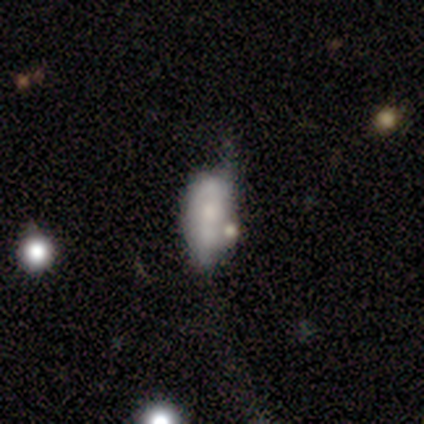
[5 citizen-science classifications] A smooth galaxy with no disk features (80%) that is in between round and cigar-shaped (100%).

Vote fractions:
- Smooth or featured? smooth: 80% / featured or disk: 20% / star or artifact: 0%
- How rounded? in between: 100% / round: 0% / cigar-shaped: 0%
- Merging? merger: 60% / none: 20% / major disturbance: 20% / minor disturbance: 0%